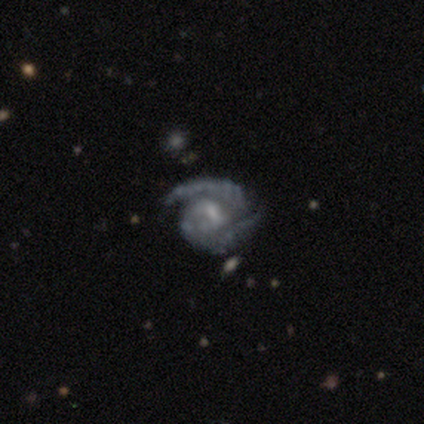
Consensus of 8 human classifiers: Volunteers were most divided on "bulge size": small: 50%, moderate: 38%, none: 12%, dominant: 0%, large: 0%. More confident: smooth or featured — featured or disk (100%); edge-on disk — no (100%); spiral arms — yes (100%); merging — none (88%); spiral arm count — 2 (75%); spiral winding — tight (62%); bar — weak (62%).